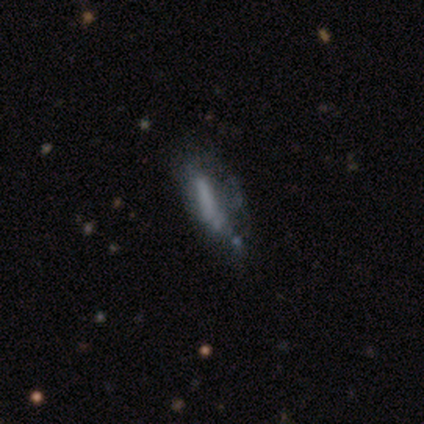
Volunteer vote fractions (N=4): This is likely a smooth galaxy (75%). How rounded: clearly cigar-shaped (100%). Merging: possibly none (50%, tied with minor disturbance).